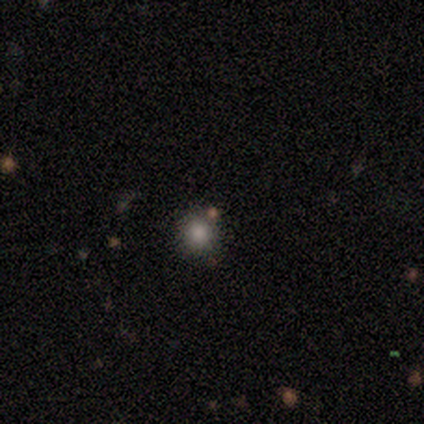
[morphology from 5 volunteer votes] smooth-or-featured: smooth: 60% | featured or disk: 20% | star or artifact: 20%
  how-rounded: round: 100% | in between: 0% | cigar-shaped: 0%
  merging: none: 100% | minor disturbance: 0% | major disturbance: 0% | merger: 0%